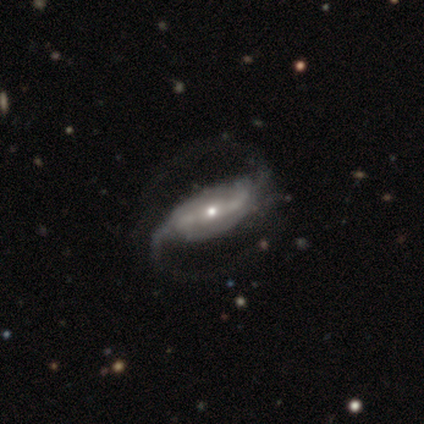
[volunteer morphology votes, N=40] type=featured or disk (88%); edge-on=no (94%); bar=strong (52%); spiral arms=yes (94%); winding=loose (55%); arm count=2 (100%); bulge=small (61%); merging=none (61%).